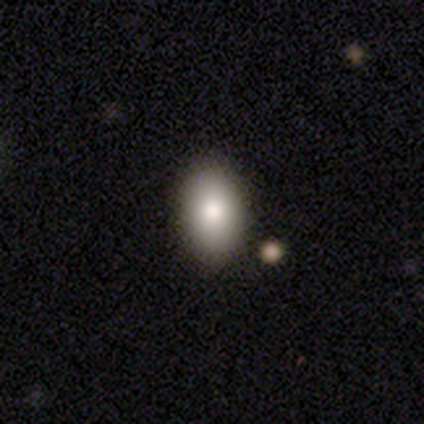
Morphology: type=smooth (80%); roundness=in between (75%); merging=none (100%).